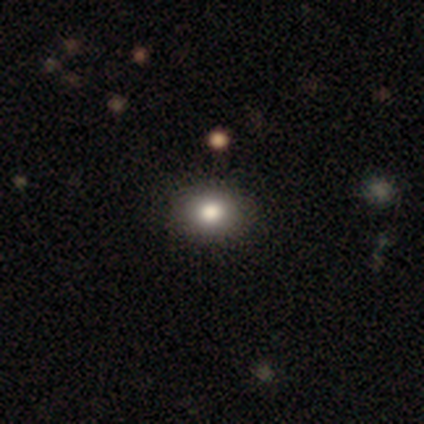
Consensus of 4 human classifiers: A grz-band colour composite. It shows a smooth galaxy with no disk features (50%, tied with featured or disk) that is round (100%). Merging: none (100%).